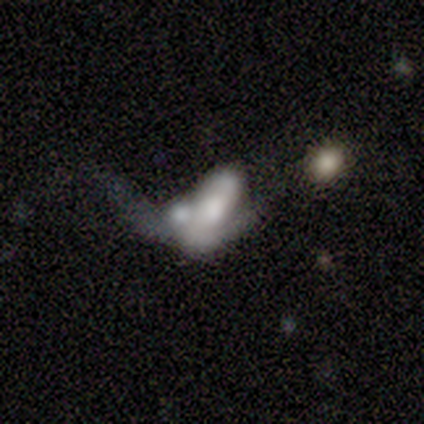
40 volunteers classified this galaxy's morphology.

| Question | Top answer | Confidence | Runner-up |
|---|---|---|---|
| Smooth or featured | featured or disk | 57% | smooth (35%) |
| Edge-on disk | no | 96% | yes (4%) |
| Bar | no | 59% | weak (27%) |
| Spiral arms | yes | 59% | no (41%) |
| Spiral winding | loose | 62% | tight (23%) |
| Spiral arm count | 2 | 62% | can't tell (23%) |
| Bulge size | moderate | 41% | dominant (18%) |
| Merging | merger | 49% | major disturbance (30%) |